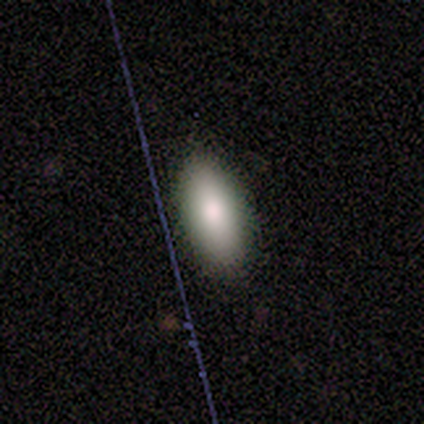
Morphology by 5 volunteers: Smooth or featured? smooth (100%)
How rounded? in between (60%)
Merging? none (100%)